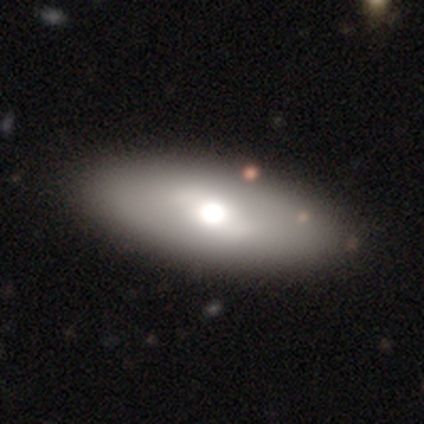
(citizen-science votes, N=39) smooth 62%, featured or disk 31%, star or artifact 8%. Down the decision tree: how rounded — in between (88%); merging — none (61%).